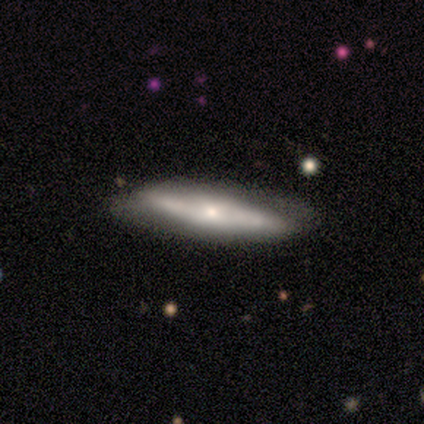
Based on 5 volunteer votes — smooth-or-featured: featured or disk: 80% | star or artifact: 20% | smooth: 0%
  disk-edge-on: yes: 50% (tied) | no: 50% (tied)
    edge-on-bulge: none: 100% | boxy: 0% | rounded: 0%
  merging: none: 100% | minor disturbance: 0% | major disturbance: 0% | merger: 0%